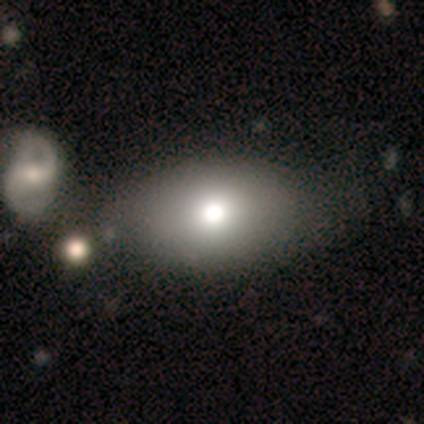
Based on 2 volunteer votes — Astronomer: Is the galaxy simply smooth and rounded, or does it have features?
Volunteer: smooth — 50%, tied with featured or disk at 50%.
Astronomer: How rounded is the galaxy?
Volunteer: in between — 100%.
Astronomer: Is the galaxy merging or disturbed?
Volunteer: none — 100%.